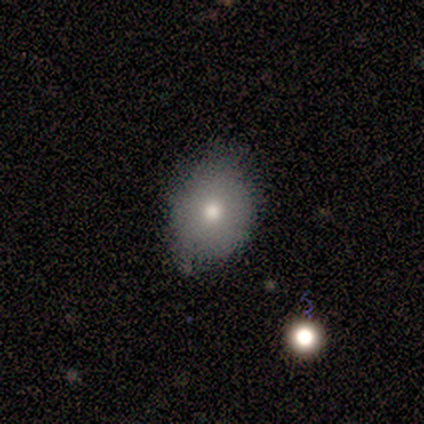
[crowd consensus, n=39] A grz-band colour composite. It shows a smooth galaxy with no disk features (72%) that is in between round and cigar-shaped (64%). Merging: none (75%).